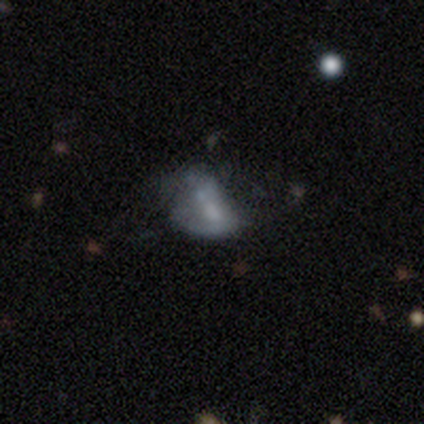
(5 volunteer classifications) smooth-or-featured: smooth: 80% | featured or disk: 20% | star or artifact: 0%
  how-rounded: in between: 75% | round: 25% | cigar-shaped: 0%
  merging: minor disturbance: 40% (tied) | major disturbance: 40% (tied) | none: 20% | merger: 0%